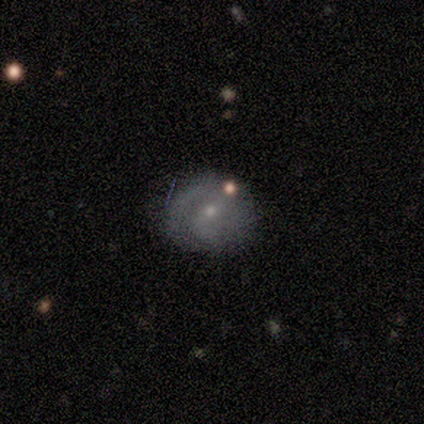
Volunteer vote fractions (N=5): Overall: featured or disk (80%). Edge-on disk: no (100%). Bar: no (75%). Spiral arms: yes (100%). Spiral arm count: 2 (50%; 1 25%). Spiral winding: medium (50%; tight 25%). Bulge size: small (50%; moderate 25%). Merging: none (100%).